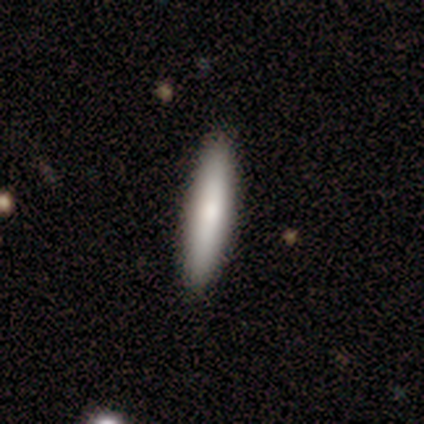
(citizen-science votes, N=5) Smooth or featured? 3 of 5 (60%) said smooth. How rounded? 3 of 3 (100%) said cigar-shaped. Merging? 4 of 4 (100%) said none.